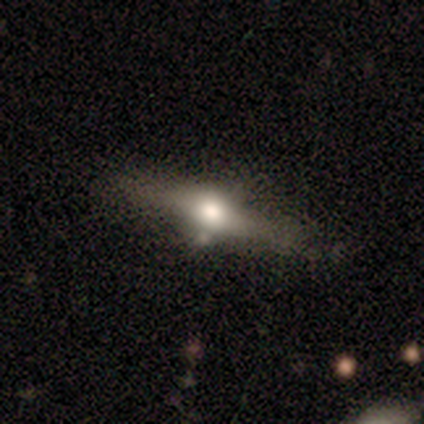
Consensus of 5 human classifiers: smooth_or_featured: featured or disk (p=1.00)
disk_edge_on: yes (p=0.80) [alt: no p=0.20]
edge_on_bulge: rounded (p=1.00)
merging: none (p=0.80) [alt: major disturbance p=0.20]